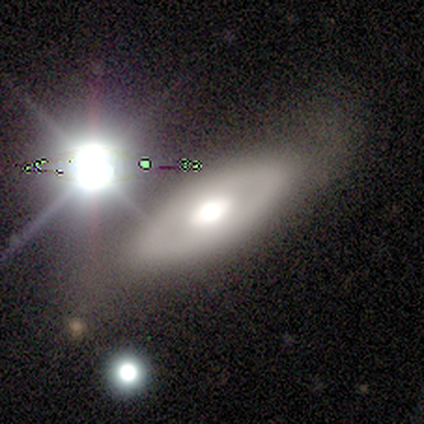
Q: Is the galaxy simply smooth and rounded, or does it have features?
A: featured or disk — 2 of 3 (67%).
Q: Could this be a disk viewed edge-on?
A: no — 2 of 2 (100%).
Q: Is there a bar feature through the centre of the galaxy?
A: weak — 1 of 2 (50%, tied with no).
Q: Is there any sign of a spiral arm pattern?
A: no — 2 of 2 (100%).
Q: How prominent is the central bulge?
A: moderate — 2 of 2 (100%).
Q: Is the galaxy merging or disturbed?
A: none — 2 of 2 (100%).